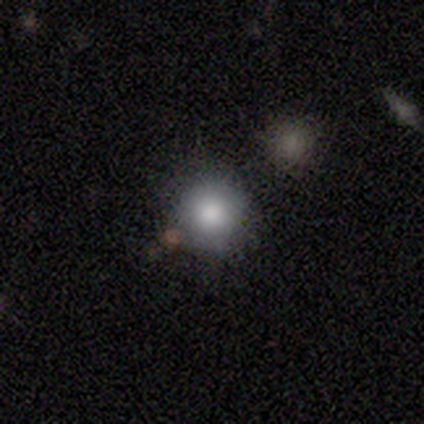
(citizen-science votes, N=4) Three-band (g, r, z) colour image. It shows a smooth galaxy with no disk features (100%) that is round (100%). Merging: none (100%).